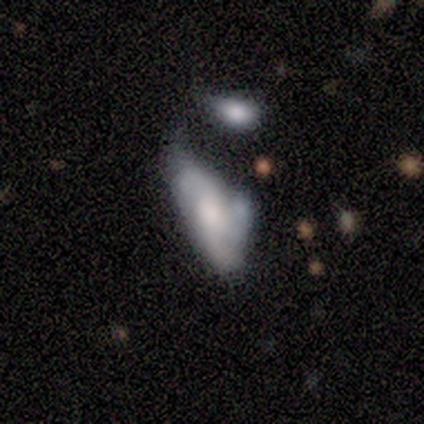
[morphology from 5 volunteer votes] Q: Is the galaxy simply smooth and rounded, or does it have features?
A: featured or disk — 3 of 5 (60%).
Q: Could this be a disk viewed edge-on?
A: no — 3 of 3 (100%).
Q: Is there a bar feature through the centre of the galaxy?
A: no — 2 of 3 (67%).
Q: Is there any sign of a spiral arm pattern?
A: no — 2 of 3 (67%).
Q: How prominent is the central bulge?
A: small — 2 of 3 (67%).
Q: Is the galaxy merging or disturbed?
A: major disturbance — 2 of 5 (40%).